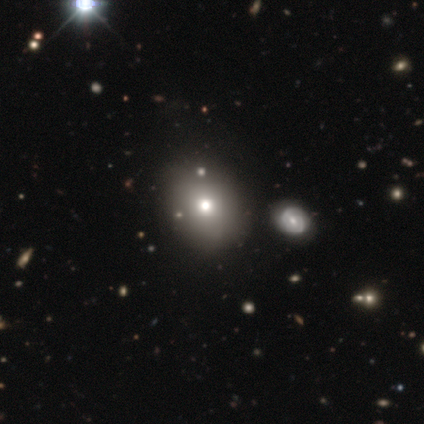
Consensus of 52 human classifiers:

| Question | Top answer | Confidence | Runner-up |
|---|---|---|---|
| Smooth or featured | smooth | 79% | featured or disk (17%) |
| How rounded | round | 54% | in between (46%) |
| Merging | none | 76% | minor disturbance (18%) |